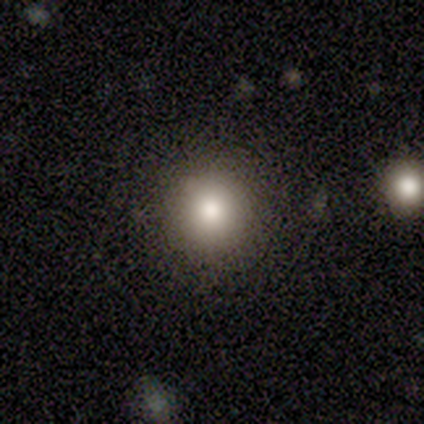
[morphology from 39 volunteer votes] Volunteers were most divided on "merging": none: 86%, minor disturbance: 14%, major disturbance: 0%, merger: 0%. More confident: how rounded — round (100%); smooth or featured — smooth (82%).